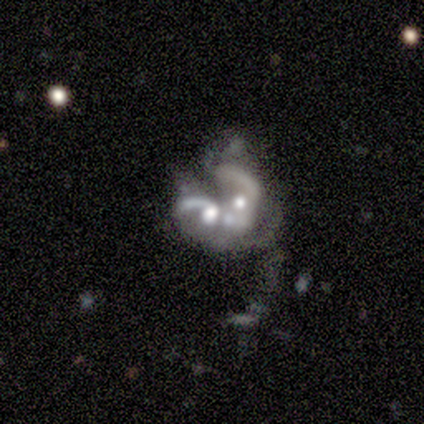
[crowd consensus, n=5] smooth-or-featured: featured or disk: 80% | star or artifact: 20% | smooth: 0%
  disk-edge-on: no: 100% | yes: 0%
    bar: no: 75% | weak: 25% | strong: 0%
    has-spiral-arms: no: 75% | yes: 25%
    bulge-size: moderate: 75% | small: 25% | dominant: 0% | large: 0% | none: 0%
  merging: merger: 100% | none: 0% | minor disturbance: 0% | major disturbance: 0%